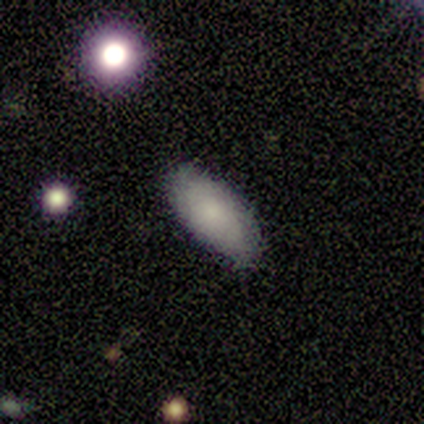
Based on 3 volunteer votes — smooth_or_featured: smooth (p=0.67) [alt: star or artifact p=0.33]
how_rounded: in between (p=1.00)
merging: none (p=1.00)